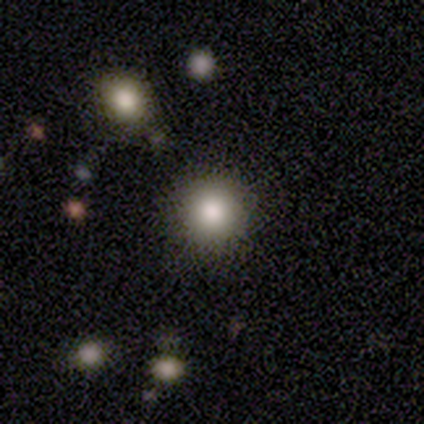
smooth 73%, featured or disk 16%, star or artifact 11%. Down the decision tree: how rounded — round (100%); merging — none (88%).